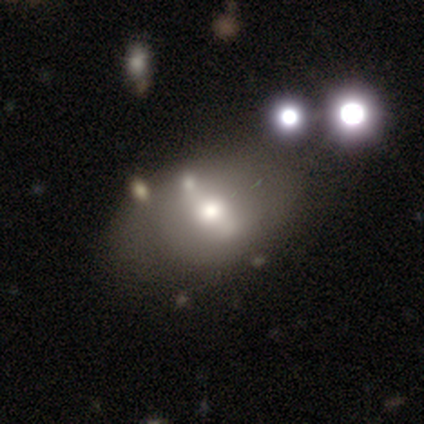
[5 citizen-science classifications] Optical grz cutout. It shows a featured or disk galaxy (60%) with a strong bar (33%, tied with weak and no), no spiral arms (67%) and a moderate central bulge (67%). Merging: none (40%, tied with minor disturbance).